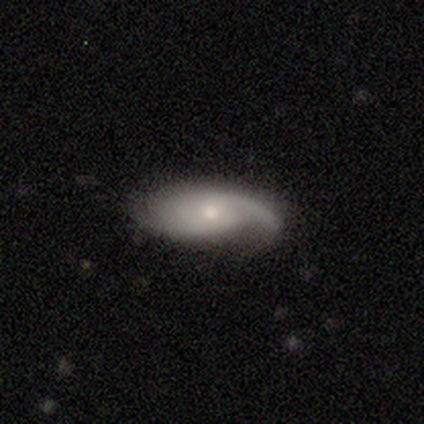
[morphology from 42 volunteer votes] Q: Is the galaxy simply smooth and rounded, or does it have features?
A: featured or disk — 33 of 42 (79%).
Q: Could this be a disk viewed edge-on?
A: no — 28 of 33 (85%).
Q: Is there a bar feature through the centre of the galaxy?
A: no — 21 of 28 (75%).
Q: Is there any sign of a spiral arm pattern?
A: yes — 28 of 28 (100%).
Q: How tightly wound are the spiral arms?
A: medium — 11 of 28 (39%).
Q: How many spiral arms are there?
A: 2 — 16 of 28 (57%).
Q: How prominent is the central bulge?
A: small — 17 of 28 (61%).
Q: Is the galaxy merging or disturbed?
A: none — 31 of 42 (74%).